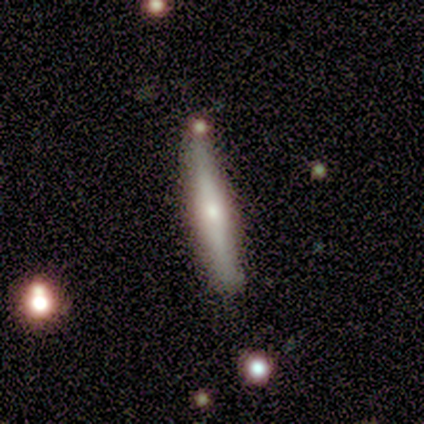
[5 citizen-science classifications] This appears to be a smooth galaxy with no disk features (60%) that is cigar-shaped (100%). Merging: none (80%).